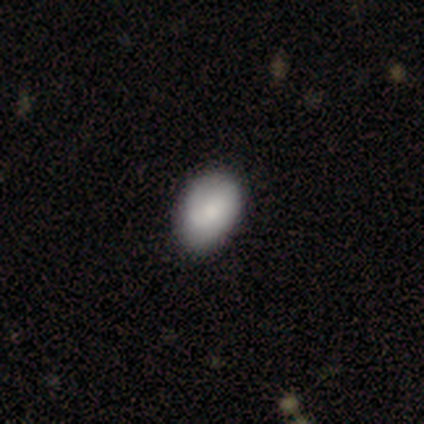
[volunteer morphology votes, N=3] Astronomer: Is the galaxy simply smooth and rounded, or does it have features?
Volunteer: smooth — 100%.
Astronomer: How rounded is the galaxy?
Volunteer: in between — 100%.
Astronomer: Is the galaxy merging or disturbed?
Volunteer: none — 100%.